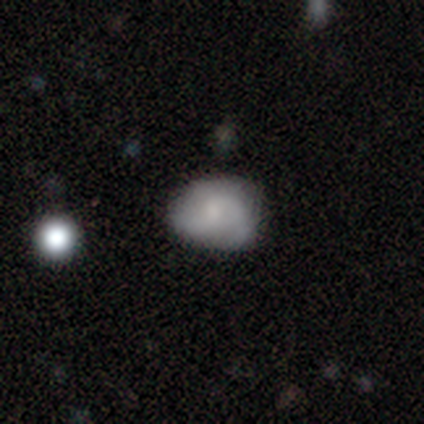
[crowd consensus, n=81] This appears to be a smooth galaxy with no disk features (53%) that is round (51%). Merging: none (39%).